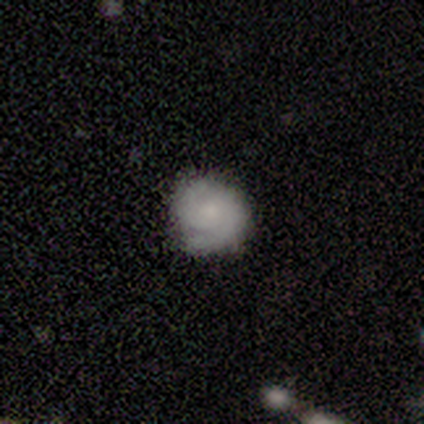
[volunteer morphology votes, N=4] Overall: smooth (50%, tied with featured or disk). How rounded: round (50%, tied with in between). Merging: none (75%).